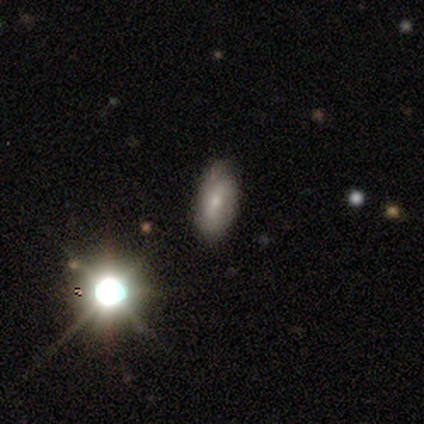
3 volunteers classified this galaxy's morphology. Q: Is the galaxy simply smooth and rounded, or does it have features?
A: smooth — 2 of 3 (67%).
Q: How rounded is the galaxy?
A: in between — 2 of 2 (100%).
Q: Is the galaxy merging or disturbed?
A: none — 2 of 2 (100%).